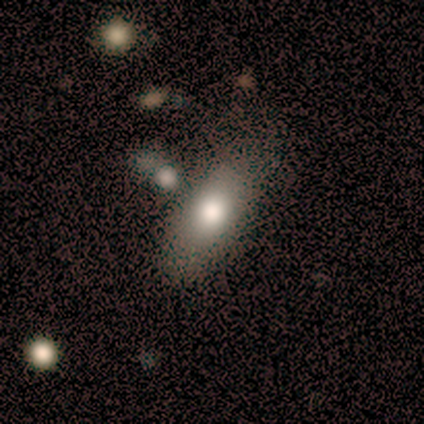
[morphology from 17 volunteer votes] Smooth or featured? smooth (76%)
How rounded? in between (92%)
Merging? none (75%)